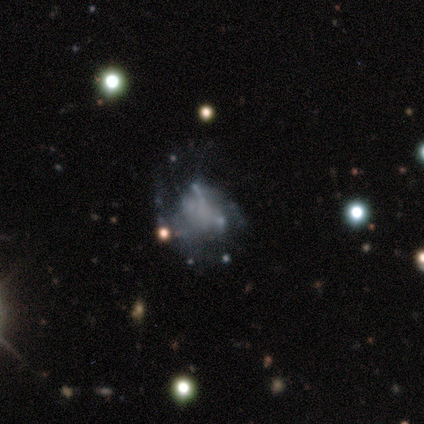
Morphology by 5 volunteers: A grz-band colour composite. It shows a featured or disk galaxy (60%) with no bar (100%), no spiral arms (100%) and no central bulge (100%). Merging: none (40%, tied with major disturbance).